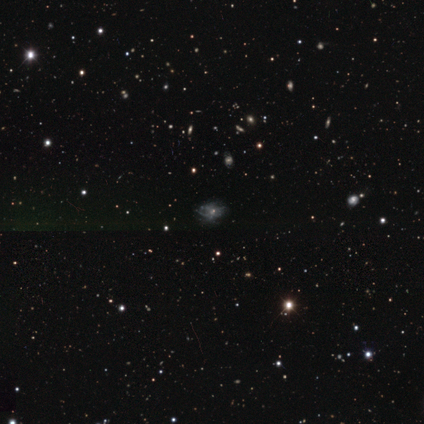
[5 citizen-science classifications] smooth_or_featured: smooth (p=0.40) [tied with: featured or disk p=0.40]
how_rounded: round (p=1.00)
merging: none (p=0.75) [alt: major disturbance p=0.25]